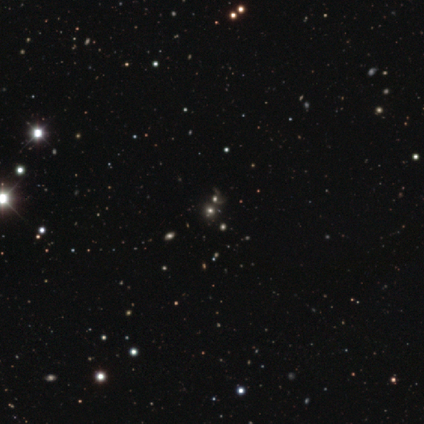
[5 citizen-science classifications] Smooth or featured? 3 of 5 (60%) said star or artifact.